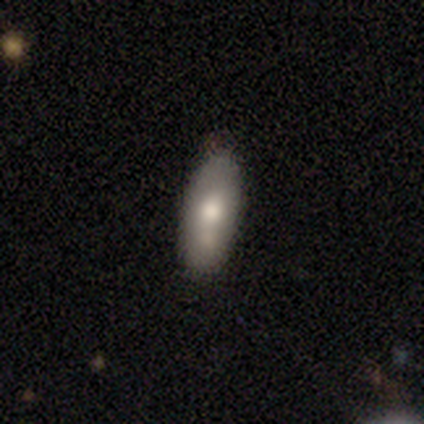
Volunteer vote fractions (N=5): Volunteers were most divided on "how rounded": in between: 75%, cigar-shaped: 25%, round: 0%. More confident: smooth or featured — smooth (80%); merging — none (80%).